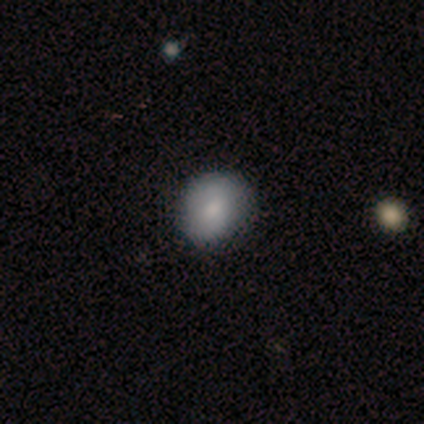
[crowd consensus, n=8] Smooth or featured? 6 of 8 (75%) said smooth. How rounded? 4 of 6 (67%) said round. Merging? 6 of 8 (75%) said none.